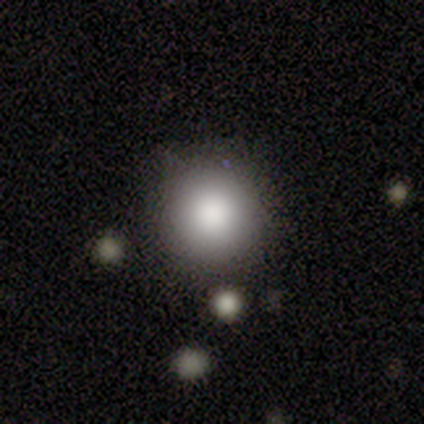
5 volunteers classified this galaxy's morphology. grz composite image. It shows a smooth galaxy with no disk features (60%) that is round (100%). Merging: none (100%).